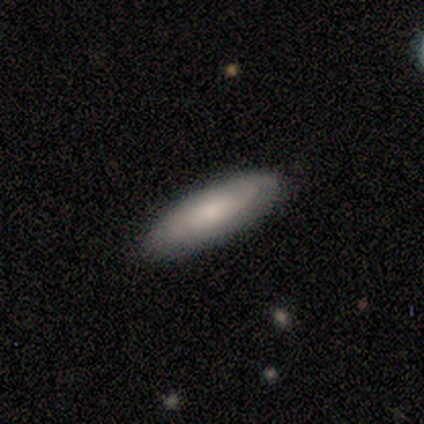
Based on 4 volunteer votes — smooth-or-featured: smooth: 75% | featured or disk: 25% | star or artifact: 0%
  how-rounded: in between: 67% | cigar-shaped: 33% | round: 0%
  merging: none: 100% | minor disturbance: 0% | major disturbance: 0% | merger: 0%